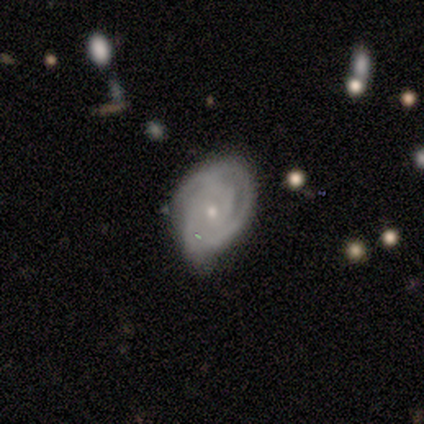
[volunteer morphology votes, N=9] Smooth or featured?
  - featured or disk: 78% *
  - smooth: 22%
  - star or artifact: 0%
Edge-on disk?
  - no: 100% *
  - yes: 0%
Bar?
  - no: 86% *
  - weak: 14%
  - strong: 0%
Spiral arms?
  - yes: 100% *
  - no: 0%
Spiral winding?
  - tight: 71% *
  - medium: 29%
  - loose: 0%
Spiral arm count?
  - 2: 57% *
  - 3: 29%
  - can't tell: 14%
  - 1: 0%
  - 4: 0%
  - more than 4: 0%
Bulge size?
  - small: 86% *
  - moderate: 14%
  - dominant: 0%
  - large: 0%
  - none: 0%
Merging?
  - minor disturbance: 56% *
  - none: 44%
  - major disturbance: 0%
  - merger: 0%